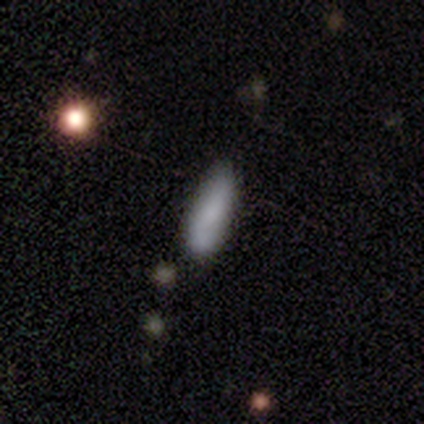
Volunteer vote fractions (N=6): Smooth or featured?
  - smooth: 83% *
  - featured or disk: 17%
  - star or artifact: 0%
How rounded?
  - cigar-shaped: 80% *
  - in between: 20%
  - round: 0%
Merging?
  - none: 67% *
  - minor disturbance: 33%
  - major disturbance: 0%
  - merger: 0%